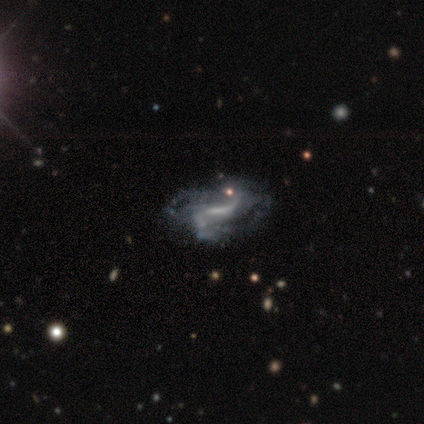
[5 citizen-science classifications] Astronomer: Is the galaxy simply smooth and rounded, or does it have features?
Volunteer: featured or disk — 80%.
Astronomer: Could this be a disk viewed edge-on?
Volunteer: no — 100%.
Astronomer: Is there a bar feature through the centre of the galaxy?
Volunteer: weak — 50%.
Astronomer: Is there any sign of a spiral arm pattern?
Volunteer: yes — 75%.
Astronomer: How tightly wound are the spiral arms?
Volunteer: tight — 33%, tied with medium and loose at 33%.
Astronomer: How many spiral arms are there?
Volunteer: can't tell — 67%.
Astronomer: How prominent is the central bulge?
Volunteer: none — 75%.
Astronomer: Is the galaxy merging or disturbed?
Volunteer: major disturbance — 50%.